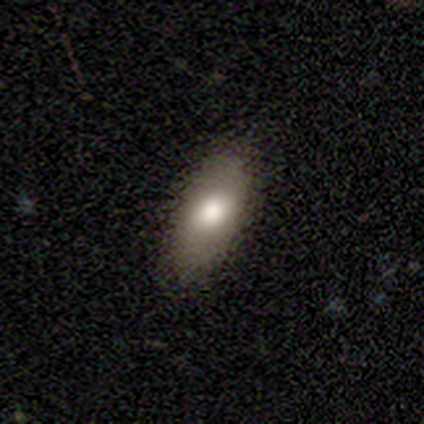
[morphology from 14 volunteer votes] This appears to be a smooth galaxy with no disk features (93%) that is in between round and cigar-shaped (92%). Merging: none (71%).